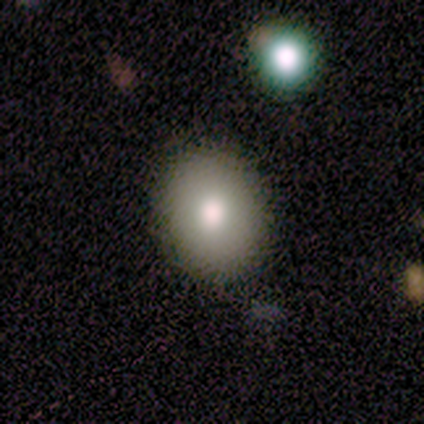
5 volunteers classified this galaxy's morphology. smooth_or_featured: smooth (p=0.80) [alt: featured or disk p=0.20]
how_rounded: in between (p=0.75) [alt: round p=0.25]
merging: none (p=0.80) [alt: minor disturbance p=0.20]